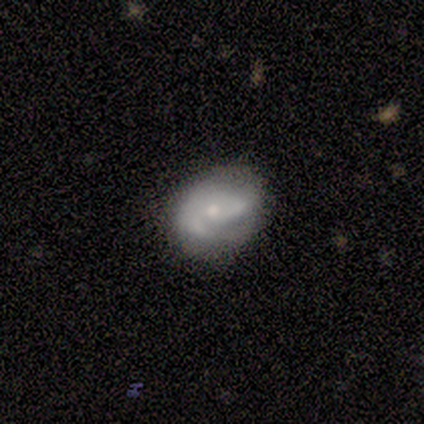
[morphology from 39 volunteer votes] Overall: featured or disk (64%; smooth 26%). Edge-on disk: no (96%). Bar: no (71%). Spiral arms: yes (67%; no 33%). Spiral arm count: 2 (75%). Spiral winding: medium (44%; tight 31%). Bulge size: small (58%; moderate 33%). Merging: none (74%).